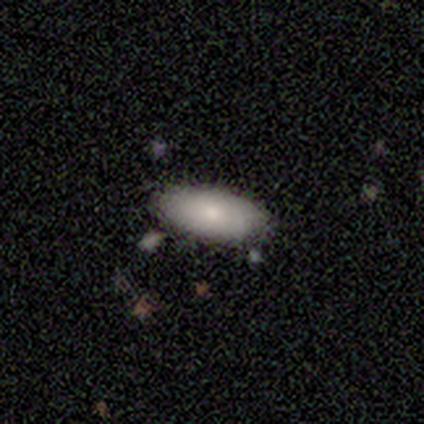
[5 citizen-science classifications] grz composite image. It shows a smooth galaxy with no disk features (100%) that is in between round and cigar-shaped (100%). Merging: none (80%).